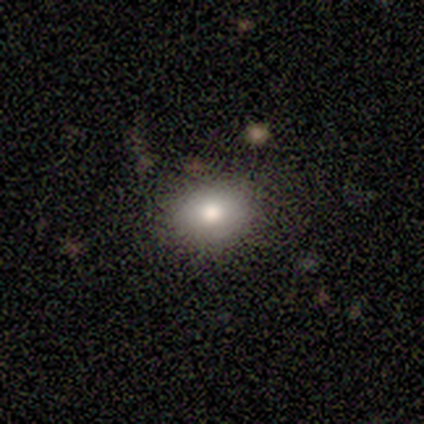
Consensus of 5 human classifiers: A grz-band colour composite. It shows a smooth galaxy with no disk features (100%) that is round (60%). Merging: none (80%).